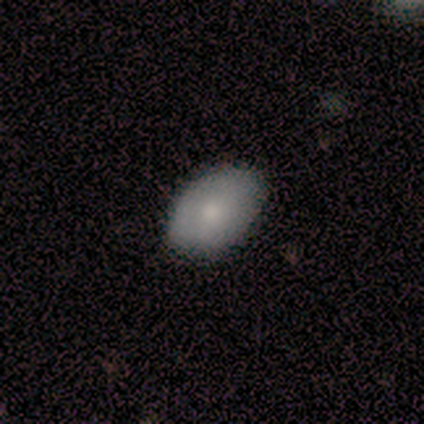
smooth-or-featured: smooth: 100% | featured or disk: 0% | star or artifact: 0%
  how-rounded: in between: 100% | round: 0% | cigar-shaped: 0%
  merging: none: 100% | minor disturbance: 0% | major disturbance: 0% | merger: 0%